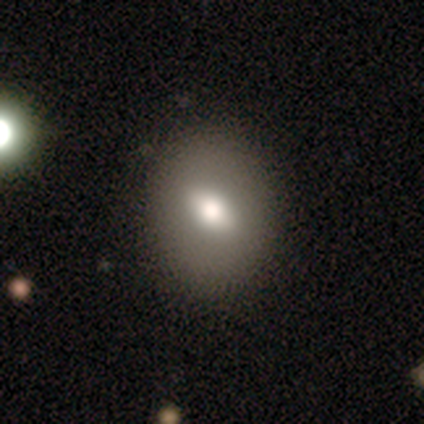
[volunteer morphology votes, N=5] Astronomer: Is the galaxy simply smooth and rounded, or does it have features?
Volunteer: smooth — 60%.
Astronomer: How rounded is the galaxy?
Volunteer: in between — 67%.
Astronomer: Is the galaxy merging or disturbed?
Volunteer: none — 75%.